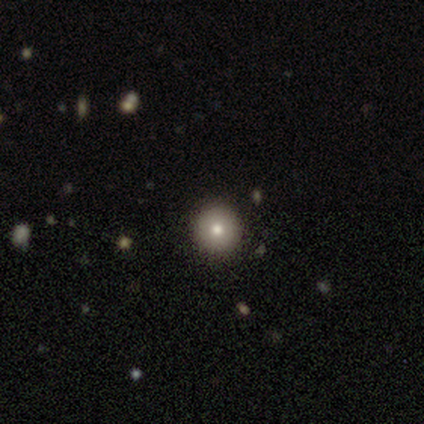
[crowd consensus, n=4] Smooth or featured? smooth (75%)
How rounded? round (100%)
Merging? none (100%)